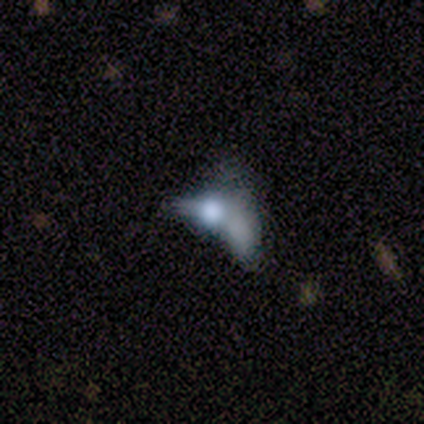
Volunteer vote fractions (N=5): Q: Smooth or featured?
A: smooth (60%); runner-up: featured or disk (40%)
Q: How rounded?
A: round (33%); tied with: in between (33%); cigar-shaped (33%)
Q: Merging?
A: major disturbance (60%); runner-up: none (20%)